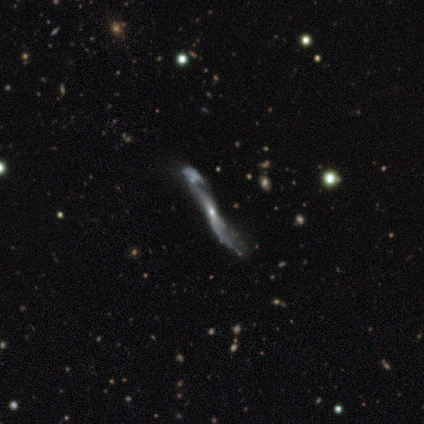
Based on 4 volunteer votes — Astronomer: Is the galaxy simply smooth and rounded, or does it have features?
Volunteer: featured or disk — 75%.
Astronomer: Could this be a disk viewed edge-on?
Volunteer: no — 67%.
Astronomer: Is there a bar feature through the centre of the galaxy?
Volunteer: weak — 50%, tied with no at 50%.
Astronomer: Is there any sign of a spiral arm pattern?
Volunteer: no — 100%.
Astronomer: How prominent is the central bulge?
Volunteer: small — 100%.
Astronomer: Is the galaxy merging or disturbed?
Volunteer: none — 50%, tied with merger at 50%.